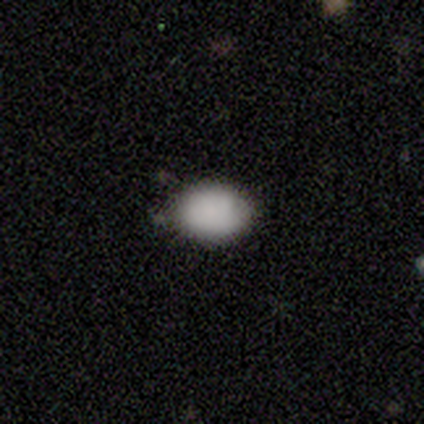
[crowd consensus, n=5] smooth-or-featured: smooth: 60% | star or artifact: 40% | featured or disk: 0%
  how-rounded: in between: 67% | round: 33% | cigar-shaped: 0%
  merging: none: 67% | minor disturbance: 33% | major disturbance: 0% | merger: 0%